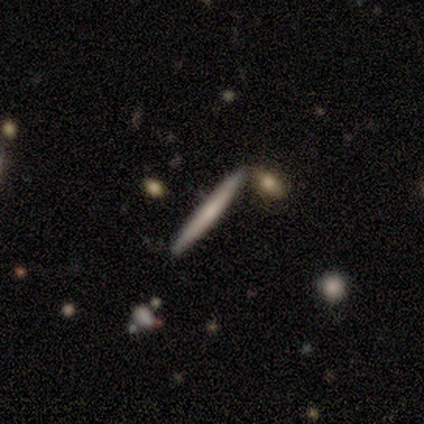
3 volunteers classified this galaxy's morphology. featured or disk 67%, smooth 33%, star or artifact 0%. Down the decision tree: edge-on disk — yes (100%); edge-on bulge — none (50%, tied with rounded); merging — none (100%).